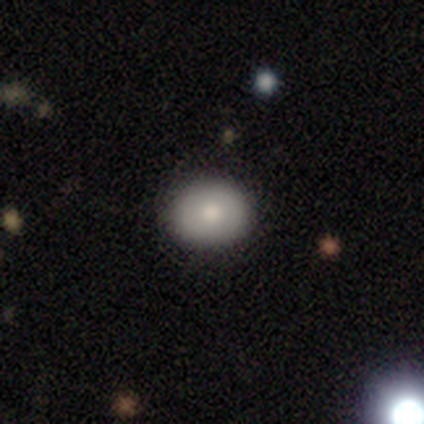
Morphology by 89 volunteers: Q: Smooth or featured?
A: smooth (73%); runner-up: featured or disk (20%)
Q: How rounded?
A: round (63%); runner-up: in between (37%)
Q: Merging?
A: none (86%); runner-up: minor disturbance (11%)